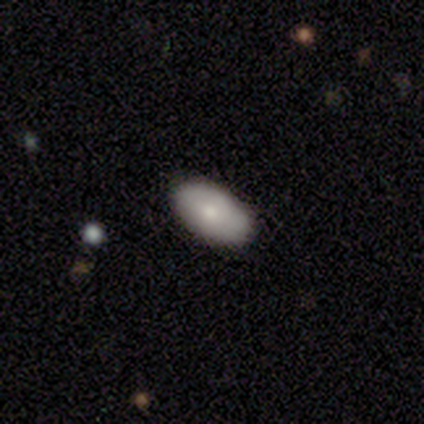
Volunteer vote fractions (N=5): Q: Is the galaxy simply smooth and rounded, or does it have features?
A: smooth — 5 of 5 (100%).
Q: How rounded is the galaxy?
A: in between — 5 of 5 (100%).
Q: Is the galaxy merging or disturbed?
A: none — 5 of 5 (100%).